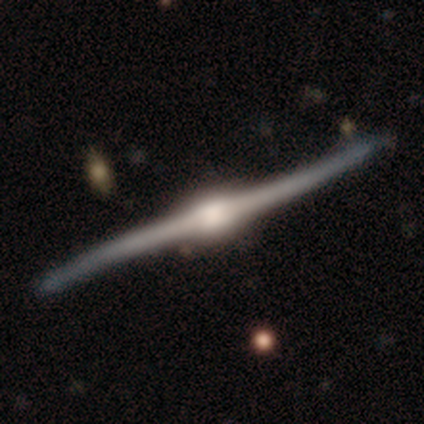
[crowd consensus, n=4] Q: Smooth or featured?
A: featured or disk (100%)
Q: Edge-on disk?
A: yes (100%)
Q: Edge-on bulge?
A: rounded (100%)
Q: Merging?
A: none (75%); runner-up: minor disturbance (25%)